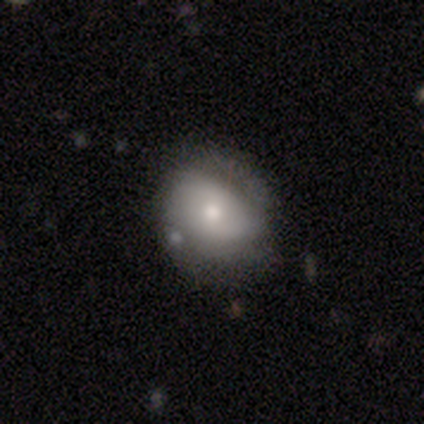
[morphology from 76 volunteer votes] Volunteers were most divided on "merging": none: 32%, minor disturbance: 21%, merger: 1%, major disturbance: 0%. More confident: how rounded — round (57%); smooth or featured — smooth (53%).